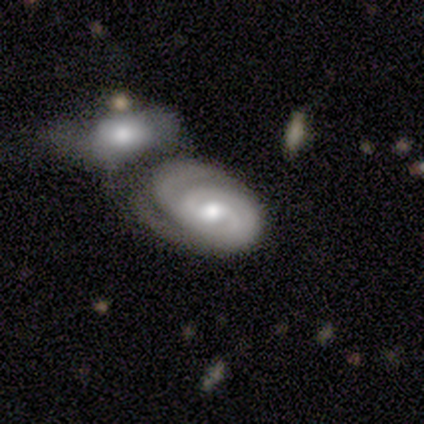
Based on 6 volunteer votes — smooth-or-featured: featured or disk: 83% | smooth: 17% | star or artifact: 0%
  disk-edge-on: no: 100% | yes: 0%
    bar: no: 80% | weak: 20% | strong: 0%
    has-spiral-arms: yes: 100% | no: 0%
      spiral-winding: tight: 100% | medium: 0% | loose: 0%
      spiral-arm-count: 2: 40% (tied) | 3: 40% (tied) | can't tell: 20% | 1: 0% | 4: 0% | more than 4: 0%
    bulge-size: moderate: 100% | dominant: 0% | large: 0% | small: 0% | none: 0%
  merging: none: 33% (tied) | minor disturbance: 33% (tied) | merger: 33% (tied) | major disturbance: 0%